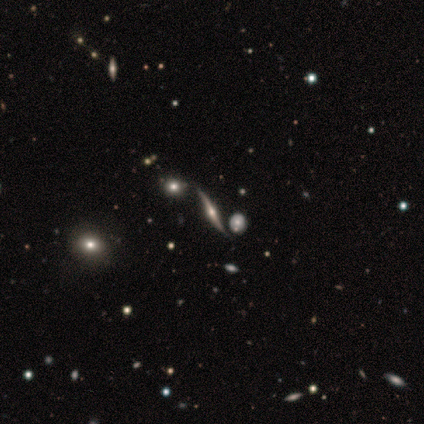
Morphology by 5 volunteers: Smooth or featured?
  - featured or disk: 100% *
  - smooth: 0%
  - star or artifact: 0%
Edge-on disk?
  - no: 60% *
  - yes: 40%
Bar?
  - weak: 67% *
  - no: 33%
  - strong: 0%
Spiral arms?
  - yes: 100% *
  - no: 0%
Spiral winding?
  - loose: 100% *
  - tight: 0%
  - medium: 0%
Spiral arm count?
  - 2: 67% *
  - can't tell: 33%
  - 1: 0%
  - 3: 0%
  - 4: 0%
  - more than 4: 0%
Bulge size?
  - small: 100% *
  - dominant: 0%
  - large: 0%
  - moderate: 0%
  - none: 0%
Merging?
  - none: 80% *
  - merger: 20%
  - minor disturbance: 0%
  - major disturbance: 0%